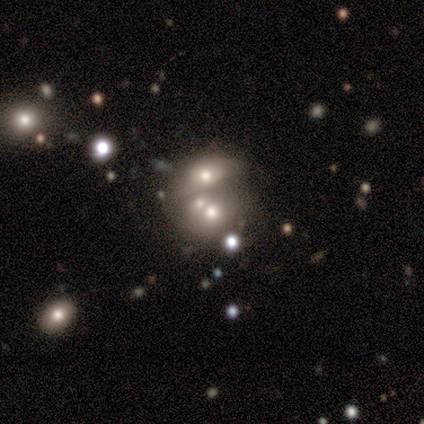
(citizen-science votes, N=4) Q: Smooth or featured?
A: smooth (75%); runner-up: star or artifact (25%)
Q: How rounded?
A: in between (67%); runner-up: round (33%)
Q: Merging?
A: merger (67%); runner-up: none (33%)